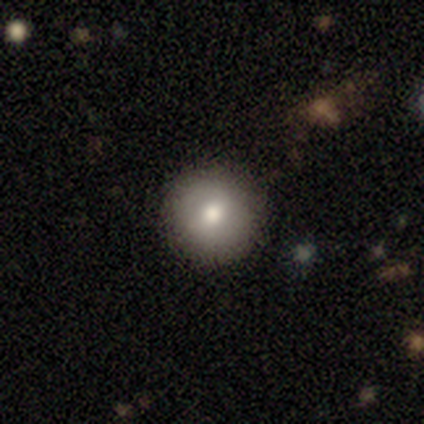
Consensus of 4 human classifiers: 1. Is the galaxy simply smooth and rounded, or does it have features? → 100% smooth, 0% featured or disk, 0% star or artifact.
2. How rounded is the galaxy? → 100% round, 0% in between, 0% cigar-shaped.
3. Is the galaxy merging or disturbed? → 100% none, 0% minor disturbance, 0% major disturbance, 0% merger.